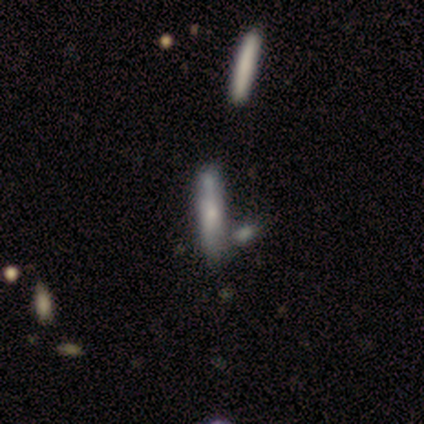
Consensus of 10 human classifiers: This appears to be a featured or disk galaxy (60%) viewed edge-on (67%) with a rounded central bulge (50%). Merging: none (33%, tied with minor disturbance and merger).